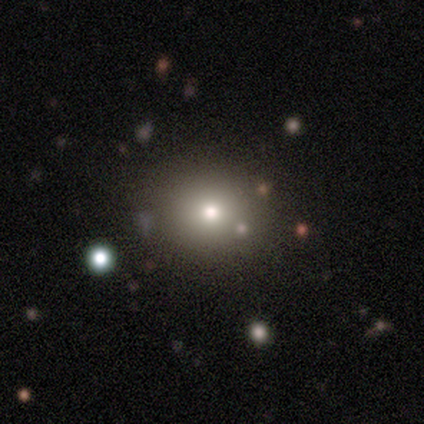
This appears to be a smooth galaxy with no disk features (100%) that is round (75%). Merging: none (100%).